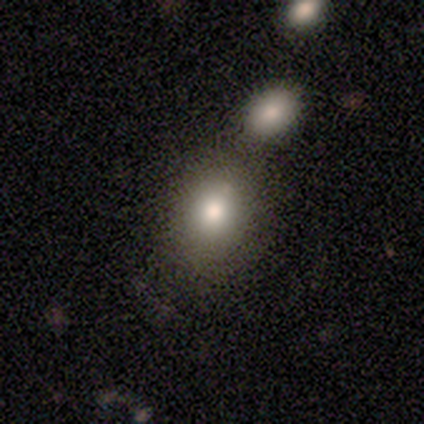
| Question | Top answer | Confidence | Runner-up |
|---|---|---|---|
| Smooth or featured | smooth | 80% | featured or disk (12%) |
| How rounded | round | 53% | in between (47%) |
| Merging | none | 60% | merger (27%) |